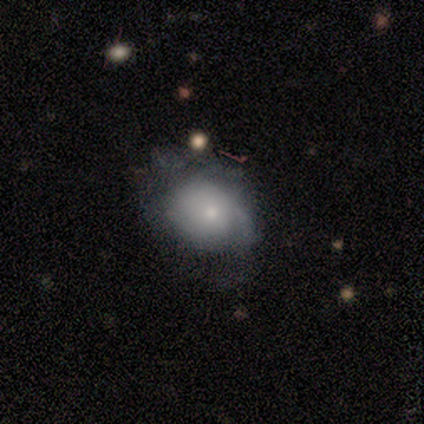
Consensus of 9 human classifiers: Volunteers were most divided on "smooth or featured" (2-way tie): smooth: 44%, featured or disk: 44%, star or artifact: 11%; "merging" (2-way tie): none: 50%, major disturbance: 50%, minor disturbance: 0%, merger: 0%. More confident: how rounded — in between (100%).